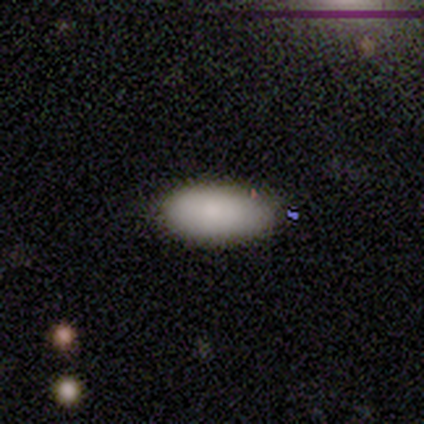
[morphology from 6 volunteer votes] Volunteers were most divided on "how rounded": in between: 80%, cigar-shaped: 20%, round: 0%. More confident: smooth or featured — smooth (83%); merging — none (80%).